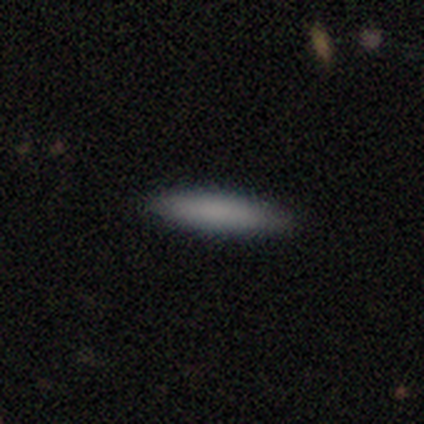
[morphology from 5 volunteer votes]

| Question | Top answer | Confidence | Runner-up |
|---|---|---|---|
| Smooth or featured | smooth | 100% | — |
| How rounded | cigar-shaped | 60% | in between (40%) |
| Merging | none | 80% | minor disturbance (20%) |